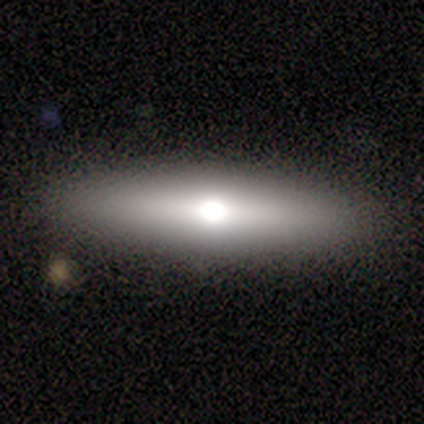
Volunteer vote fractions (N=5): Volunteers were most divided on "smooth or featured" (2-way tie): smooth: 40%, featured or disk: 40%, star or artifact: 20%. More confident: how rounded — cigar-shaped (100%); merging — none (100%).